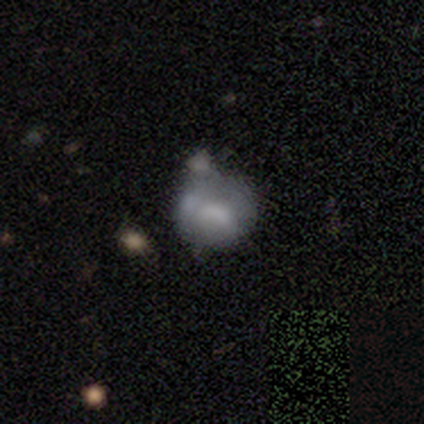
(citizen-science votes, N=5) Smooth or featured: smooth — 60% (featured or disk — 40%)
How rounded: round — 67% (in between — 33%)
Merging: minor disturbance — 40% (tied with major disturbance — 40%)